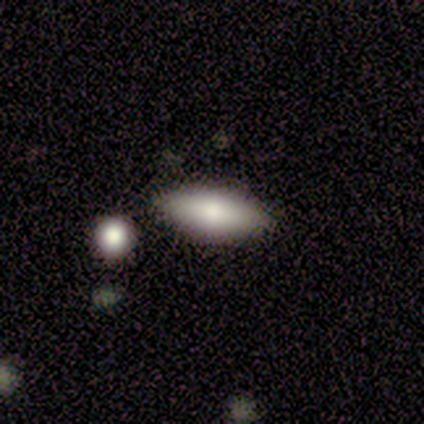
A smooth galaxy with no disk features (67%) that is in between round and cigar-shaped (75%).

Vote fractions:
- Smooth or featured? smooth: 67% / featured or disk: 17% / star or artifact: 17%
- How rounded? in between: 75% / cigar-shaped: 25% / round: 0%
- Merging? none: 100% / minor disturbance: 0% / major disturbance: 0% / merger: 0%